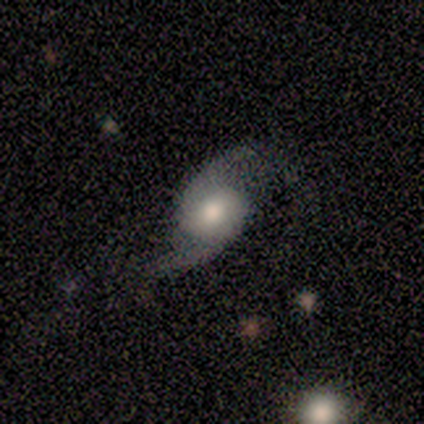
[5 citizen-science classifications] This is clearly a featured or disk galaxy (80%). It is clearly not viewed edge-on (100%). Bar: likely no (75%). Spiral arm pattern: clearly yes (100%). Spiral arm count: clearly 2 (100%). Spiral winding: clearly loose (100%). Central bulge: likely moderate (75%). Merging: clearly none (100%).